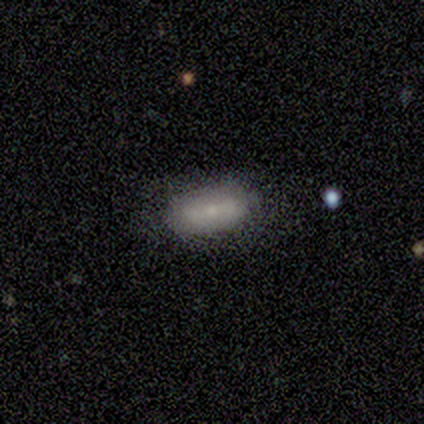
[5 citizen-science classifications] A featured or disk galaxy (80%) with no bar (50%), no spiral arms (75%) and a small central bulge (100%).

Vote fractions:
- Smooth or featured? featured or disk: 80% / smooth: 20% / star or artifact: 0%
- Edge-on disk? no: 100% / yes: 0%
- Bar? no: 50% / strong: 25% / weak: 25%
- Spiral arms? no: 75% / yes: 25%
- Bulge size? small: 100% / dominant: 0% / large: 0% / moderate: 0% / none: 0%
- Merging? none: 60% / minor disturbance: 40% / major disturbance: 0% / merger: 0%